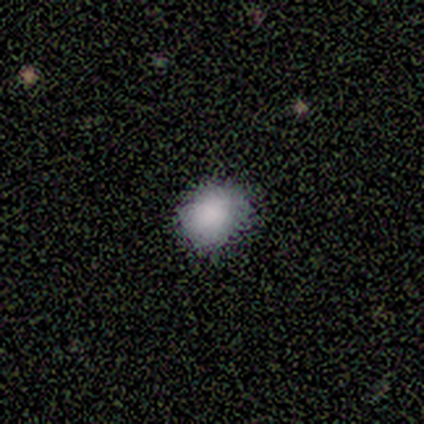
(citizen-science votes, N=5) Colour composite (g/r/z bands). It shows a smooth galaxy with no disk features (80%) that is round (50%, tied with in between). Merging: none (100%).